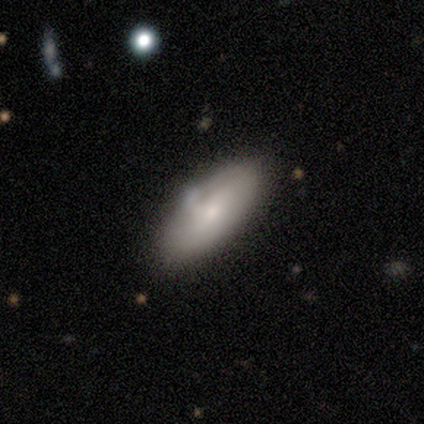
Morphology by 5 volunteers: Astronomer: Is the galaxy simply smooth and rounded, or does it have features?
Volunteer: smooth — 80%.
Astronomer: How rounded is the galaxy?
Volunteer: in between — 100%.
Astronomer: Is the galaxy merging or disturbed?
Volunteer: minor disturbance — 60%.